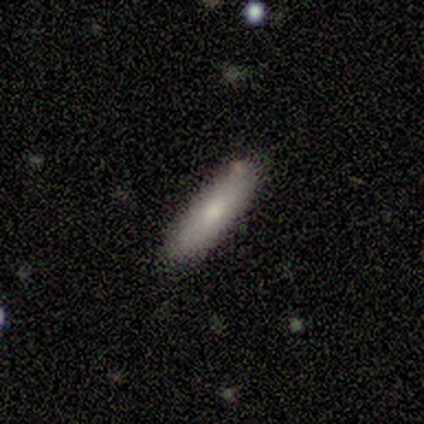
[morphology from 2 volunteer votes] This appears to be a smooth galaxy with no disk features (100%) that is in between round and cigar-shaped (50%, tied with cigar-shaped). Merging: none (100%).